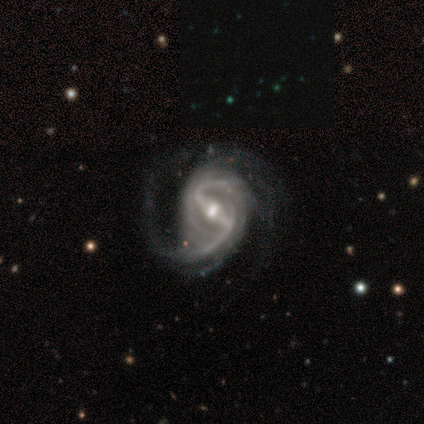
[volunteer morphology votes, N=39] smooth-or-featured: featured or disk: 95% | smooth: 5% | star or artifact: 0%
  disk-edge-on: no: 97% | yes: 3%
    bar: strong: 81% | weak: 14% | no: 6%
    has-spiral-arms: yes: 100% | no: 0%
      spiral-winding: medium: 47% | loose: 39% | tight: 14%
      spiral-arm-count: 2: 69% | can't tell: 14% | 3: 8% | 1: 6% | more than 4: 3% | 4: 0%
    bulge-size: moderate: 67% | small: 28% | large: 6% | dominant: 0% | none: 0%
  merging: none: 54% | minor disturbance: 28% | major disturbance: 18% | merger: 0%